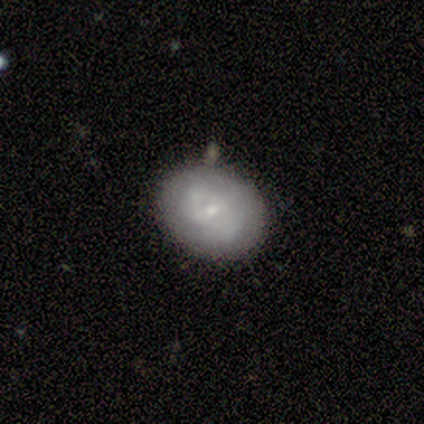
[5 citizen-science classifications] A smooth galaxy with no disk features (60%) that is round (100%).

Vote fractions:
- Smooth or featured? smooth: 60% / featured or disk: 20% / star or artifact: 20%
- How rounded? round: 100% / in between: 0% / cigar-shaped: 0%
- Merging? none: 50% (tied) / minor disturbance: 50% (tied) / major disturbance: 0% / merger: 0%